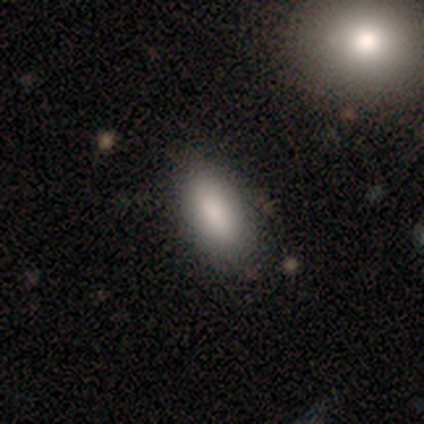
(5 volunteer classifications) A smooth galaxy with no disk features (80%) that is in between round and cigar-shaped (75%).

Vote fractions:
- Smooth or featured? smooth: 80% / featured or disk: 20% / star or artifact: 0%
- How rounded? in between: 75% / cigar-shaped: 25% / round: 0%
- Merging? none: 80% / minor disturbance: 20% / major disturbance: 0% / merger: 0%